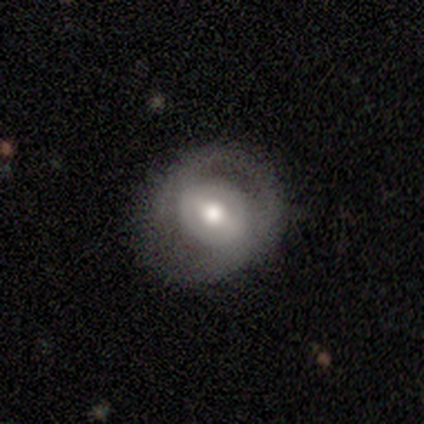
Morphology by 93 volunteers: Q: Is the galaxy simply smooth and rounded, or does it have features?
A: featured or disk — 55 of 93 (59%).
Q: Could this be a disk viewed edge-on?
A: no — 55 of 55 (100%).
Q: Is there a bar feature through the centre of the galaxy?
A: strong — 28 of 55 (51%).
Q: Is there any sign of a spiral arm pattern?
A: yes — 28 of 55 (51%).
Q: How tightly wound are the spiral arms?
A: medium — 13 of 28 (46%).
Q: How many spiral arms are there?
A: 2 — 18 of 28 (64%).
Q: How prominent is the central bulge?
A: moderate — 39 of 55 (71%).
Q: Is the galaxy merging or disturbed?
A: none — 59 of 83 (71%).